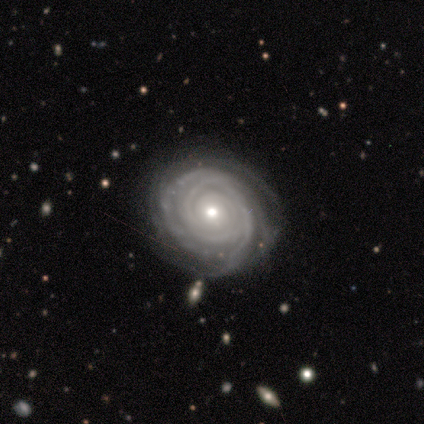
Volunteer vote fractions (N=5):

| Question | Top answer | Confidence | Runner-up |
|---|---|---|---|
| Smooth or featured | featured or disk | 100% | — |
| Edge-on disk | no | 100% | — |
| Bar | no | 100% | — |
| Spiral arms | yes | 80% | no (20%) |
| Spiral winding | tight | 100% | — |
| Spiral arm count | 2 | 25% | tied: 3 (25%), more than 4 (25%), can't tell (25%) |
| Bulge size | moderate | 80% | small (20%) |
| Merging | none | 100% | — |